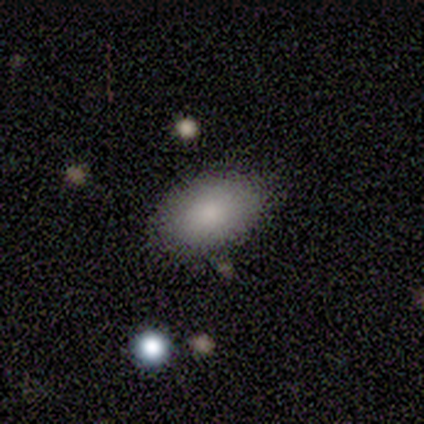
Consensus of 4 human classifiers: Morphology: type=smooth (75%); roundness=in between (100%); merging=none (100%).